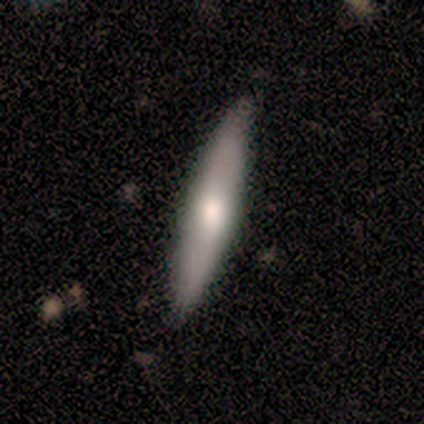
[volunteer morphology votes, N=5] Smooth or featured: smooth — 100%
How rounded: cigar-shaped — 100%
Merging: none — 100%